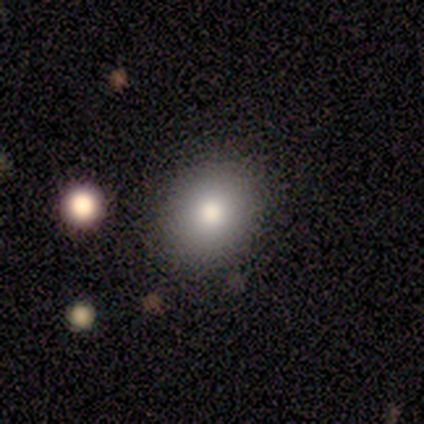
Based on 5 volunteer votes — This appears to be a smooth galaxy with no disk features (80%) that is round (50%, tied with in between). Merging: none (100%).